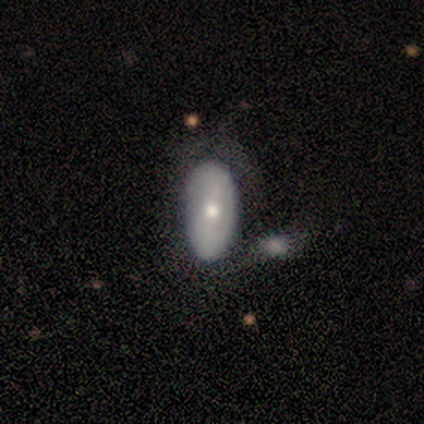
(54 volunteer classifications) This is possibly a featured or disk galaxy (48%). It is clearly not viewed edge-on (96%). Bar: possibly no (56%). Spiral arm pattern: likely no (72%). Central bulge: likely moderate (60%). Merging: marginally none (45%).